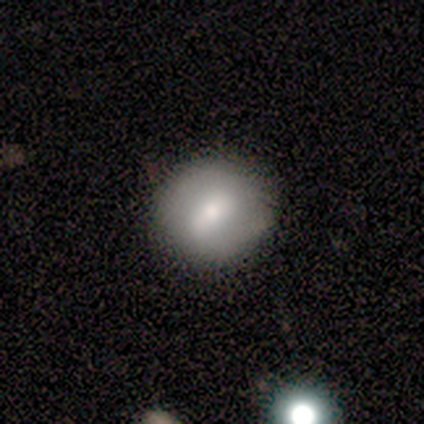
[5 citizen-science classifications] smooth-or-featured: featured or disk: 80% | smooth: 20% | star or artifact: 0%
  disk-edge-on: no: 100% | yes: 0%
    bar: strong: 50% | weak: 25% | no: 25%
    has-spiral-arms: no: 75% | yes: 25%
    bulge-size: moderate: 75% | small: 25% | dominant: 0% | large: 0% | none: 0%
  merging: none: 60% | minor disturbance: 20% | major disturbance: 20% | merger: 0%